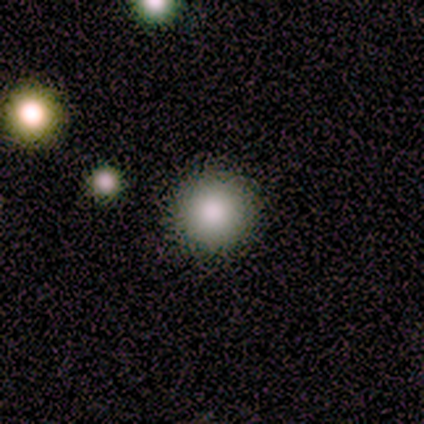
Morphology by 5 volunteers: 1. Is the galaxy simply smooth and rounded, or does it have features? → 100% smooth, 0% featured or disk, 0% star or artifact.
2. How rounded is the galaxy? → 100% round, 0% in between, 0% cigar-shaped.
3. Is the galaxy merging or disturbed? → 80% none, 20% major disturbance, 0% minor disturbance, 0% merger.